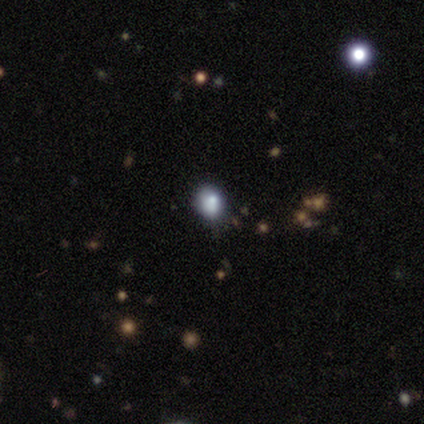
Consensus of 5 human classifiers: smooth_or_featured: smooth (p=0.80) [alt: star or artifact p=0.20]
how_rounded: round (p=0.75) [alt: in between p=0.25]
merging: none (p=1.00)